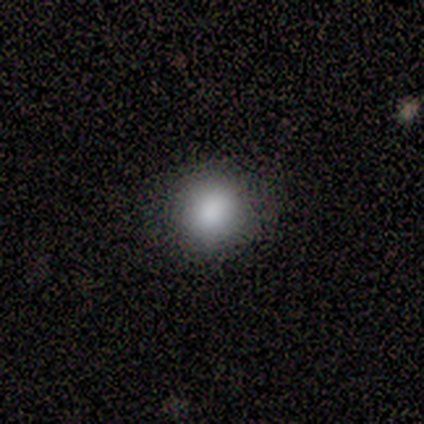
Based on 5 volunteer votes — smooth_or_featured: smooth (p=1.00)
how_rounded: round (p=1.00)
merging: none (p=0.80) [alt: minor disturbance p=0.20]